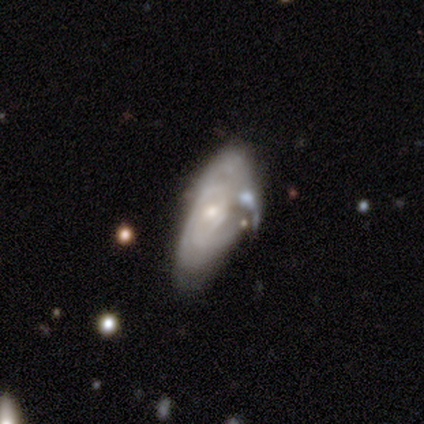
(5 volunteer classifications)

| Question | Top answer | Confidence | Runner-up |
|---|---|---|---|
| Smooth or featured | featured or disk | 100% | — |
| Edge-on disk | no | 80% | yes (20%) |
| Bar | no | 75% | weak (25%) |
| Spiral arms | yes | 75% | no (25%) |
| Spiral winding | tight | 100% | — |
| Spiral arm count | can't tell | 100% | — |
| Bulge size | moderate | 75% | small (25%) |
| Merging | none | 60% | major disturbance (20%) |